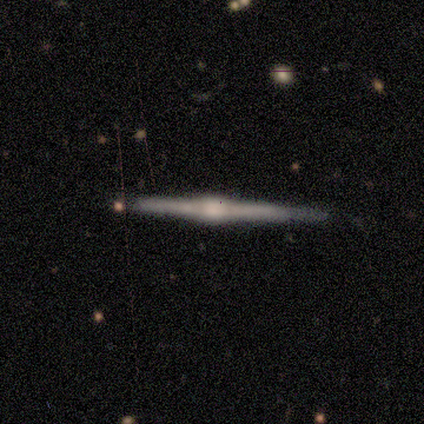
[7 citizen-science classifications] smooth_or_featured: featured or disk (p=0.86) [alt: smooth p=0.14]
disk_edge_on: yes (p=1.00)
edge_on_bulge: rounded (p=0.83) [alt: boxy p=0.17]
merging: none (p=0.71) [alt: minor disturbance p=0.14]